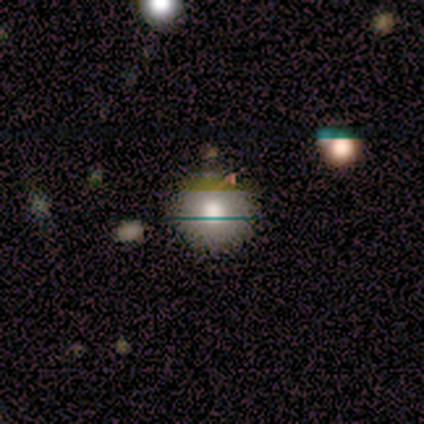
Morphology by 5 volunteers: smooth-or-featured: smooth: 80% | featured or disk: 20% | star or artifact: 0%
  how-rounded: round: 100% | in between: 0% | cigar-shaped: 0%
  merging: none: 80% | major disturbance: 20% | minor disturbance: 0% | merger: 0%